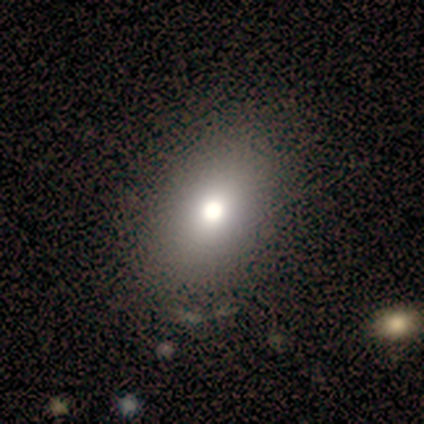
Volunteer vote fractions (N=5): A smooth galaxy with no disk features (60%) that is in between round and cigar-shaped (67%).

Vote fractions:
- Smooth or featured? smooth: 60% / featured or disk: 20% / star or artifact: 20%
- How rounded? in between: 67% / round: 33% / cigar-shaped: 0%
- Merging? none: 100% / minor disturbance: 0% / major disturbance: 0% / merger: 0%